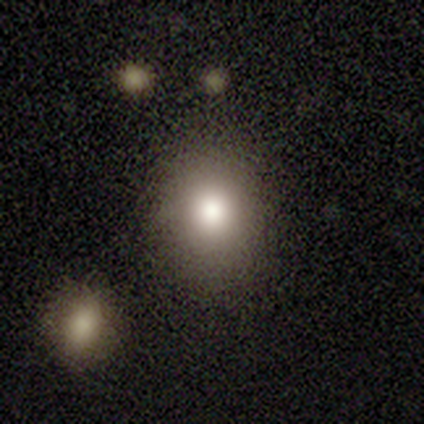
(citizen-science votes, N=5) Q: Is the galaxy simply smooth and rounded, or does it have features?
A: smooth — 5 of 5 (100%).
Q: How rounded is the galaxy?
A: round — 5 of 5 (100%).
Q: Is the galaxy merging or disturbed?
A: none — 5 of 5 (100%).